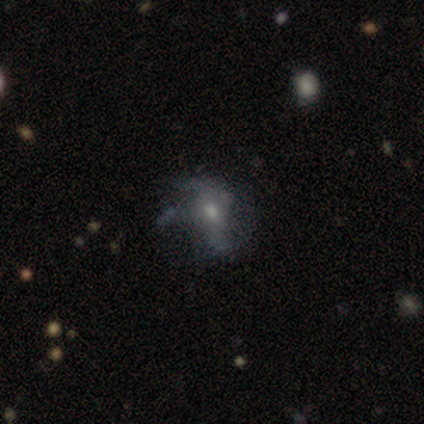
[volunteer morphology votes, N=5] smooth-or-featured: featured or disk: 100% | smooth: 0% | star or artifact: 0%
  disk-edge-on: no: 80% | yes: 20%
    bar: weak: 75% | no: 25% | strong: 0%
    has-spiral-arms: yes: 50% (tied) | no: 50% (tied)
      spiral-winding: medium: 50% (tied) | loose: 50% (tied) | tight: 0%
      spiral-arm-count: 2: 50% (tied) | 3: 50% (tied) | 1: 0% | 4: 0% | more than 4: 0% | can't tell: 0%
    bulge-size: moderate: 50% (tied) | small: 50% (tied) | dominant: 0% | large: 0% | none: 0%
  merging: major disturbance: 60% | none: 40% | minor disturbance: 0% | merger: 0%